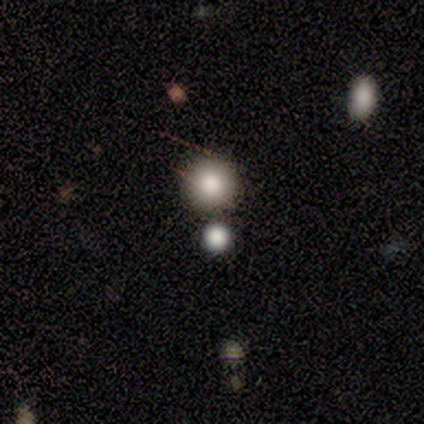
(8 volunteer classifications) This is clearly a smooth galaxy (100%). How rounded: clearly round (100%). Merging: clearly none (88%).